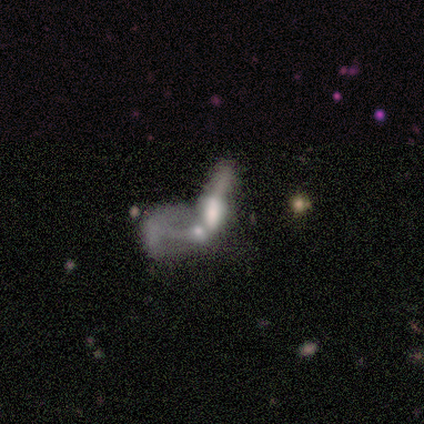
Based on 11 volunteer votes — Smooth or featured: smooth — 55% (star or artifact — 27%)
How rounded: in between — 67% (cigar-shaped — 33%)
Merging: merger — 75% (none — 12%)